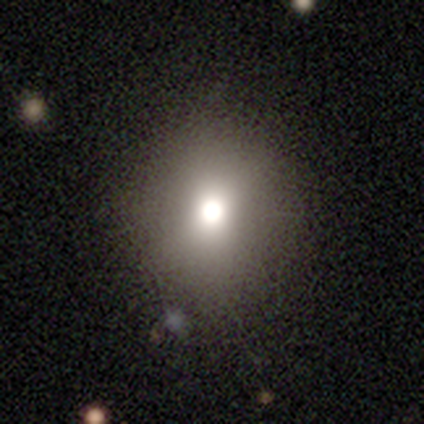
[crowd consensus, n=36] Morphology: type=smooth (47%); roundness=round (88%); merging=none (86%).